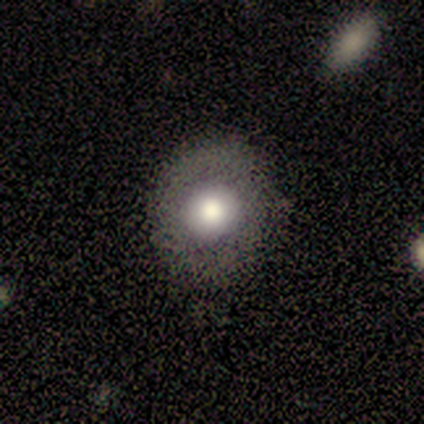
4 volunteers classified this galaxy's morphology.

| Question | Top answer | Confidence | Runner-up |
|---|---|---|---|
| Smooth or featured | smooth | 75% | featured or disk (25%) |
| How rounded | round | 100% | — |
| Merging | none | 75% | minor disturbance (25%) |